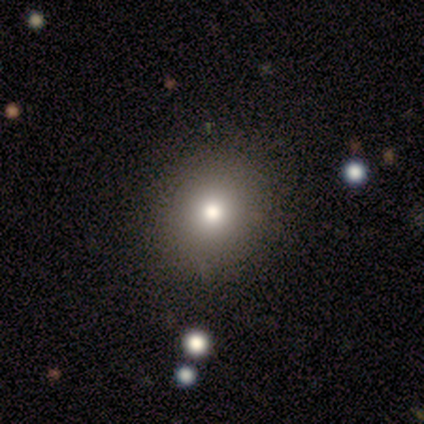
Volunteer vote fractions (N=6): Smooth or featured? 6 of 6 (100%) said smooth. How rounded? 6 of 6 (100%) said round. Merging? 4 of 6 (67%) said none.